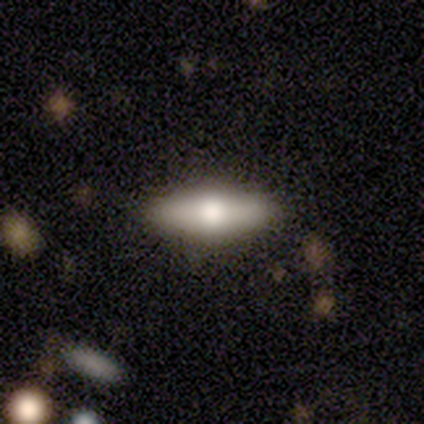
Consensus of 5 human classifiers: A featured or disk galaxy (80%) viewed edge-on (100%) with a rounded central bulge (100%). Merging: none (80%).